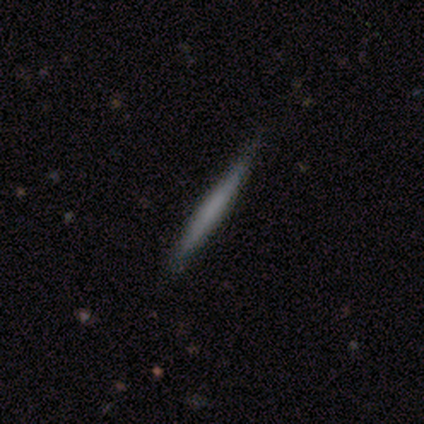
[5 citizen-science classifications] Q: Smooth or featured?
A: smooth (60%); runner-up: featured or disk (20%)
Q: How rounded?
A: cigar-shaped (100%)
Q: Merging?
A: none (100%)